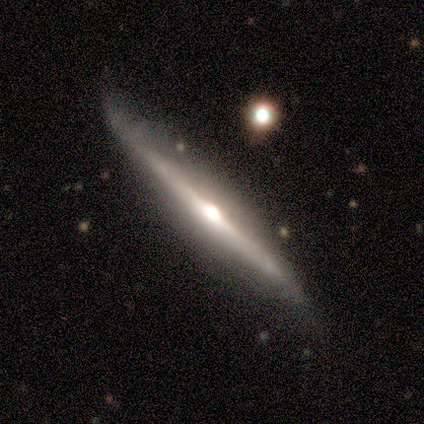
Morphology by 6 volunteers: smooth-or-featured: featured or disk: 83% | smooth: 17% | star or artifact: 0%
  disk-edge-on: yes: 80% | no: 20%
    edge-on-bulge: rounded: 100% | boxy: 0% | none: 0%
  merging: none: 83% | minor disturbance: 17% | major disturbance: 0% | merger: 0%